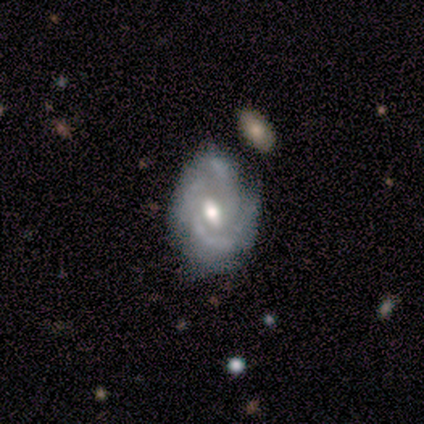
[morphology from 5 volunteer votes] Smooth or featured?
  - featured or disk: 100% *
  - smooth: 0%
  - star or artifact: 0%
Edge-on disk?
  - no: 100% *
  - yes: 0%
Bar?
  - weak: 60% *
  - strong: 20%
  - no: 20%
Spiral arms?
  - yes: 80% *
  - no: 20%
Spiral winding?
  - loose: 50% *
  - tight: 25%
  - medium: 25%
Spiral arm count?
  - 2: 50% *
  - 4: 25%
  - can't tell: 25%
  - 1: 0%
  - 3: 0%
  - more than 4: 0%
Bulge size?
  - moderate: 100% *
  - dominant: 0%
  - large: 0%
  - small: 0%
  - none: 0%
Merging?
  - none: 80% *
  - minor disturbance: 20%
  - major disturbance: 0%
  - merger: 0%